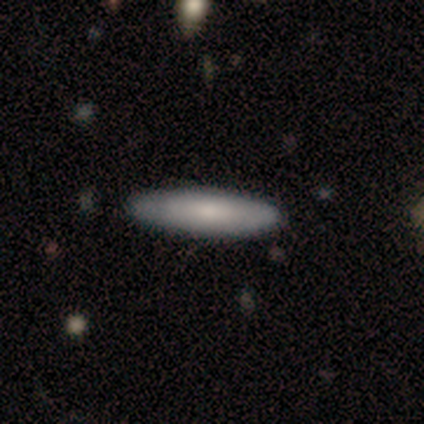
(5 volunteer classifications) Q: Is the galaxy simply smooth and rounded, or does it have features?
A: smooth — 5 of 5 (100%).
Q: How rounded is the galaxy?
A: cigar-shaped — 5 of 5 (100%).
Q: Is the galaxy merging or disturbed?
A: none — 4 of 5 (80%).